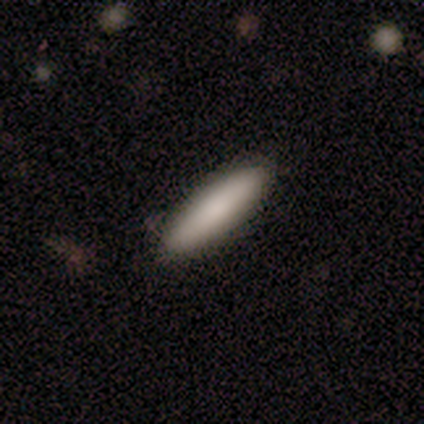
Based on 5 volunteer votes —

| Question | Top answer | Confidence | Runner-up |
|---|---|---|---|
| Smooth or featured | smooth | 60% | featured or disk (40%) |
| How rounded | cigar-shaped | 100% | — |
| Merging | none | 100% | — |